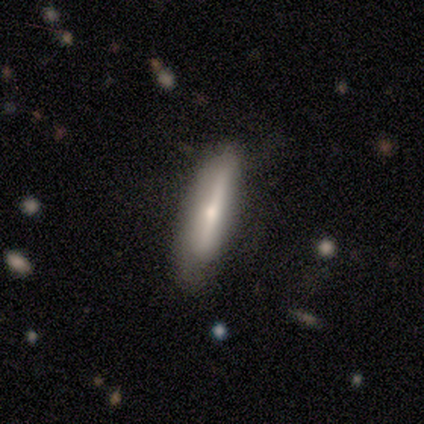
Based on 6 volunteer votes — Volunteers were most divided on "smooth or featured": smooth: 83%, star or artifact: 17%, featured or disk: 0%. More confident: how rounded — cigar-shaped (100%); merging — none (100%).